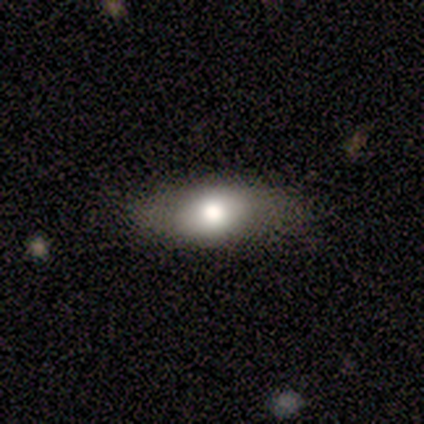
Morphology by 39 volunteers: This is likely a smooth galaxy (64%). How rounded: likely in between (76%). Merging: likely none (77%).